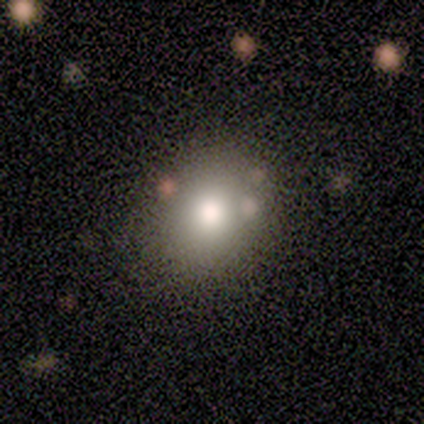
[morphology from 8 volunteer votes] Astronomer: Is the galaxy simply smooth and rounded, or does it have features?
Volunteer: smooth — 100%.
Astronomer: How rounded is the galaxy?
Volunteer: round — 62%.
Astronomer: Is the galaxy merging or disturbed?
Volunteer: none — 75%.